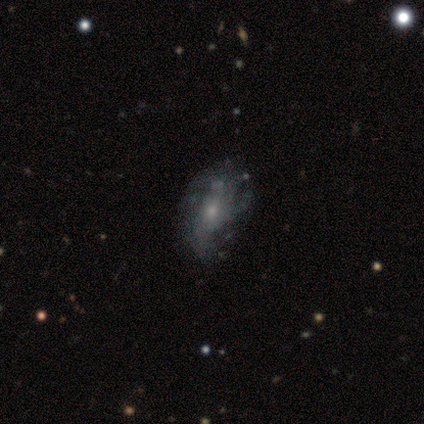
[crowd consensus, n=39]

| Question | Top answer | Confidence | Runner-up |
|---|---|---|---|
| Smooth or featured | featured or disk | 74% | smooth (23%) |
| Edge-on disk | no | 100% | — |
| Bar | no | 79% | weak (21%) |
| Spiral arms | yes | 59% | no (41%) |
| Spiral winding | loose | 53% | tight (24%) |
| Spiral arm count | can't tell | 35% | 3 (24%) |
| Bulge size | small | 55% | moderate (31%) |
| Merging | none | 37% | minor disturbance (21%) |